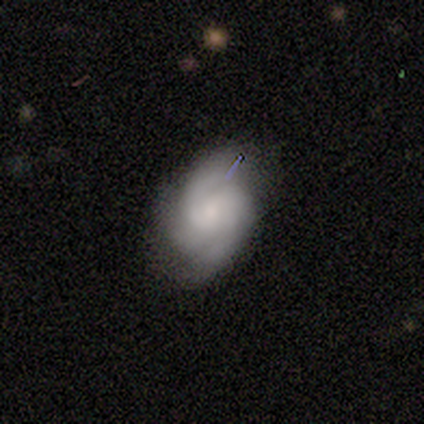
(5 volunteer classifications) Smooth or featured: featured or disk — 100%
Edge-on disk: no — 100%
Bar: no — 80% (weak — 20%)
Spiral arms: yes — 100%
Spiral winding: tight — 80% (medium — 20%)
Spiral arm count: 3 — 60% (2 — 40%)
Bulge size: small — 80% (moderate — 20%)
Merging: none — 60% (minor disturbance — 40%)